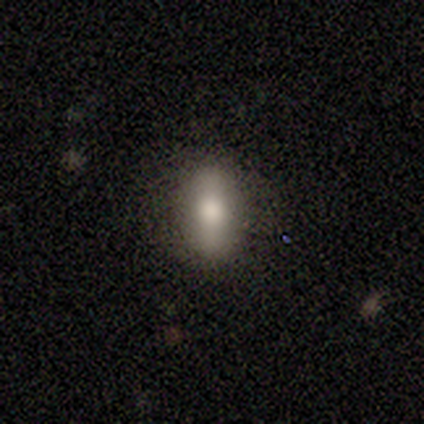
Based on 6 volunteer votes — Q: Smooth or featured?
A: smooth (83%); runner-up: featured or disk (17%)
Q: How rounded?
A: in between (100%)
Q: Merging?
A: none (100%)